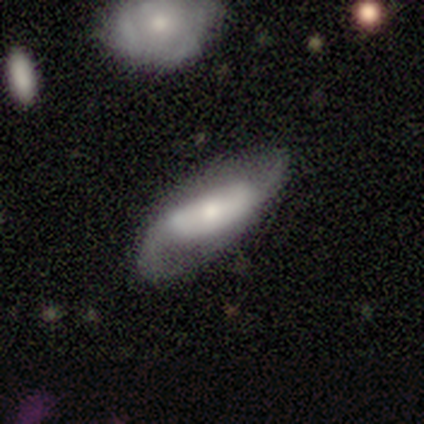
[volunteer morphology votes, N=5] Q: Smooth or featured?
A: featured or disk (60%); runner-up: smooth (40%)
Q: Edge-on disk?
A: no (100%)
Q: Bar?
A: no (67%); runner-up: strong (33%)
Q: Spiral arms?
A: yes (100%)
Q: Spiral winding?
A: loose (67%); runner-up: medium (33%)
Q: Spiral arm count?
A: 2 (100%)
Q: Bulge size?
A: large (33%); tied with: moderate (33%); small (33%)
Q: Merging?
A: none (60%); runner-up: minor disturbance (40%)